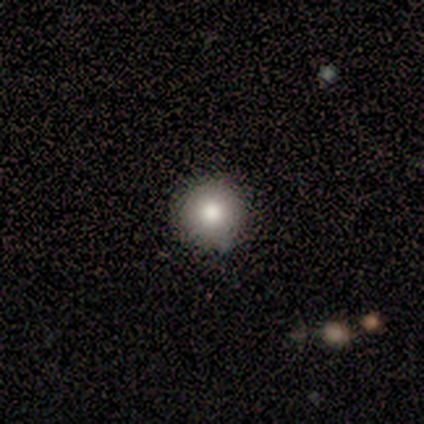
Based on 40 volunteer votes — smooth 80%, star or artifact 12%, featured or disk 8%. Down the decision tree: how rounded — round (97%); merging — none (91%).